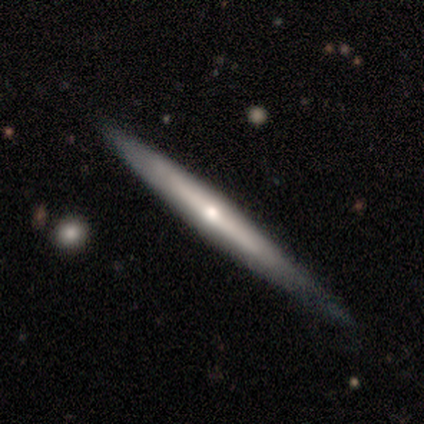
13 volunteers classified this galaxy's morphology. type=featured or disk (77%); edge-on=yes (100%); edge-on bulge=rounded (90%); merging=none (77%).